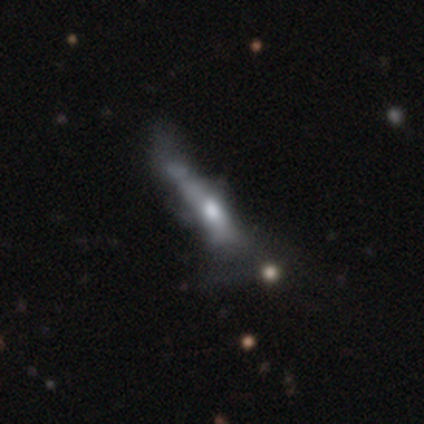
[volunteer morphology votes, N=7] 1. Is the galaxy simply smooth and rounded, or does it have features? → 71% featured or disk, 14% smooth, 14% star or artifact.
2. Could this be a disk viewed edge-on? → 60% yes, 40% no.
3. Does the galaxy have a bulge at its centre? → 100% rounded, 0% boxy, 0% none.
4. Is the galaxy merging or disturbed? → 50% major disturbance, 33% none, 17% minor disturbance, 0% merger.